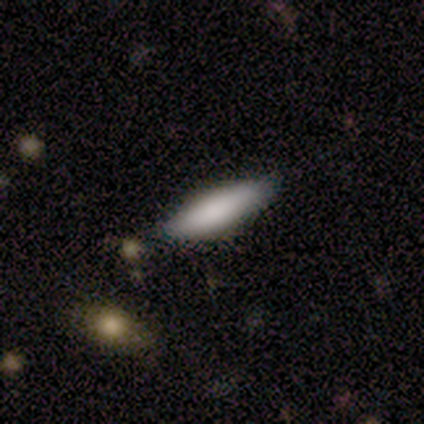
Smooth or featured?
  - smooth: 100% *
  - featured or disk: 0%
  - star or artifact: 0%
How rounded?
  - in between: 67% *
  - cigar-shaped: 33%
  - round: 0%
Merging?
  - none: 100% *
  - minor disturbance: 0%
  - major disturbance: 0%
  - merger: 0%